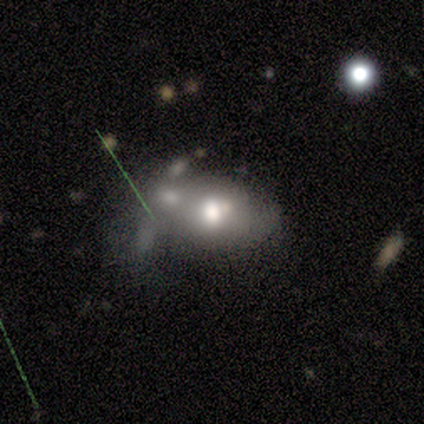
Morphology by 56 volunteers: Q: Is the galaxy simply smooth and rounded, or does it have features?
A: smooth — 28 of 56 (50%).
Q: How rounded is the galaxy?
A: in between — 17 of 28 (61%).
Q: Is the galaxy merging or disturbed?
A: merger — 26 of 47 (55%).